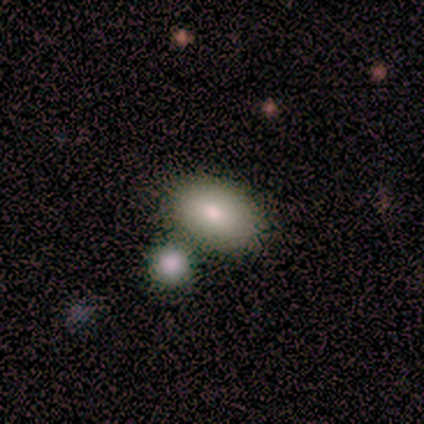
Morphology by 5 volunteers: Volunteers were most divided on "merging": none: 80%, merger: 20%, minor disturbance: 0%, major disturbance: 0%. More confident: smooth or featured — smooth (100%); how rounded — in between (100%).